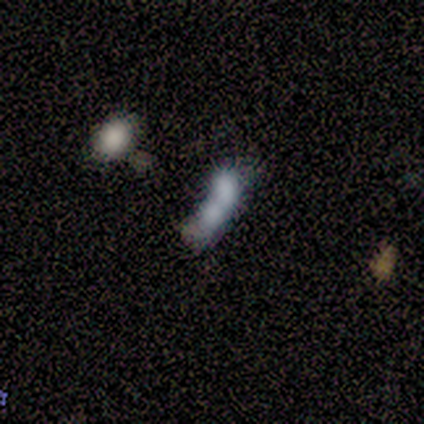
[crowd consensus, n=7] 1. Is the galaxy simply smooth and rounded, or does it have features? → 71% featured or disk, 29% smooth, 0% star or artifact.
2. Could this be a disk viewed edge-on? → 100% no, 0% yes.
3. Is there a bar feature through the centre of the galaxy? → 100% no, 0% strong, 0% weak.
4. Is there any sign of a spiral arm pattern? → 100% no, 0% yes.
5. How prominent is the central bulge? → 80% none, 20% small, 0% dominant, 0% large, 0% moderate.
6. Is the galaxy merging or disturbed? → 71% merger, 14% none, 14% minor disturbance, 0% major disturbance.